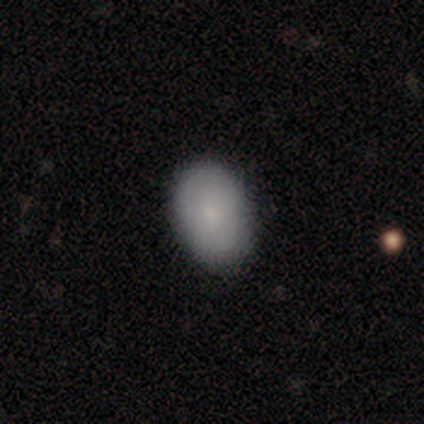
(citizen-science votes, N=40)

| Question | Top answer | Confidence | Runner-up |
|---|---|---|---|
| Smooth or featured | smooth | 90% | featured or disk (8%) |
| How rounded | in between | 81% | round (19%) |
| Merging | none | 82% | minor disturbance (18%) |